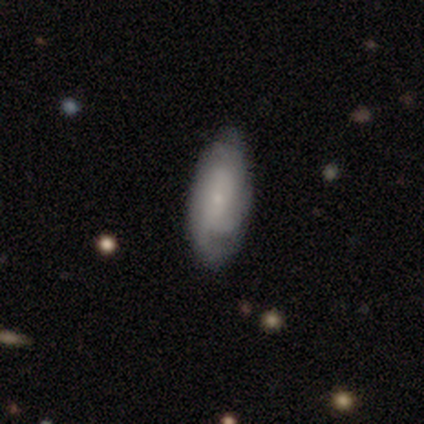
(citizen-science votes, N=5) Smooth or featured: featured or disk — 100%
Edge-on disk: no — 100%
Bar: no — 100%
Spiral arms: yes — 100%
Spiral winding: medium — 80% (loose — 20%)
Spiral arm count: 3 — 40% (1 — 20%)
Bulge size: moderate — 40% (tied with small — 40%)
Merging: none — 100%